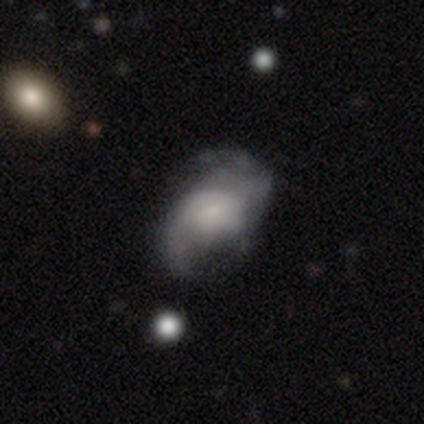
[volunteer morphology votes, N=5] A featured or disk galaxy (80%) with a weak bar (50%, tied with no), 2 (50%, tied with can't tell) medium (50%) spiral arms (100%) and a large central bulge (50%). Merging: none (60%).